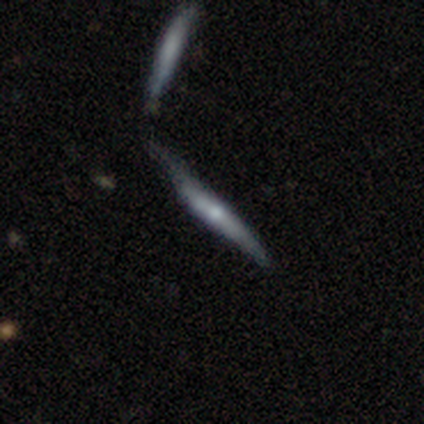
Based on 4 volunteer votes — Smooth or featured: featured or disk — 75% (smooth — 25%)
Edge-on disk: yes — 100%
Edge-on bulge: rounded — 67% (none — 33%)
Merging: none — 50% (minor disturbance — 25%)